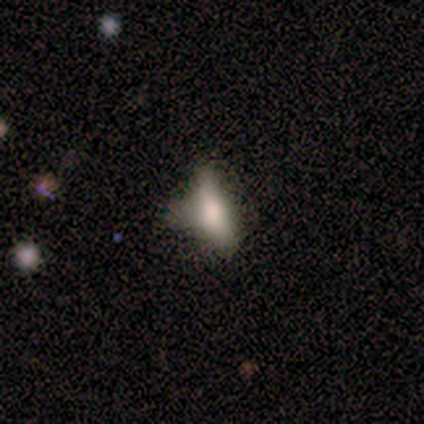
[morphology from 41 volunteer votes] type=smooth (63%); roundness=in between (65%); merging=minor disturbance (46%).